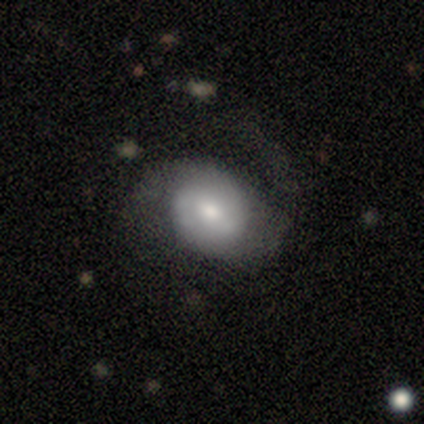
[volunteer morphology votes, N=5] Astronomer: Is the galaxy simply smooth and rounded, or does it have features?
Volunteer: featured or disk — 80%.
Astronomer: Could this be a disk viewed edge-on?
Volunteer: no — 100%.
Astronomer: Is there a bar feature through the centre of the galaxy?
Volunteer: weak — 50%, tied with no at 50%.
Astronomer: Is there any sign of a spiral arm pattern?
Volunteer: yes — 100%.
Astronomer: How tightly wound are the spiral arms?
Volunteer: tight — 50%.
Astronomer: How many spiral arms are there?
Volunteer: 2 — 50%, tied with can't tell at 50%.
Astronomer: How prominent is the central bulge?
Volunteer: moderate — 75%.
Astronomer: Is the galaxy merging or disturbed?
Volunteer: major disturbance — 60% (runner-up: none, 40%).